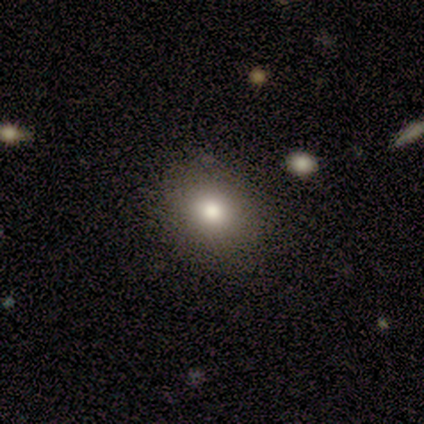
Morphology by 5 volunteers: Overall: smooth (80%). How rounded: round (75%). Merging: none (75%).